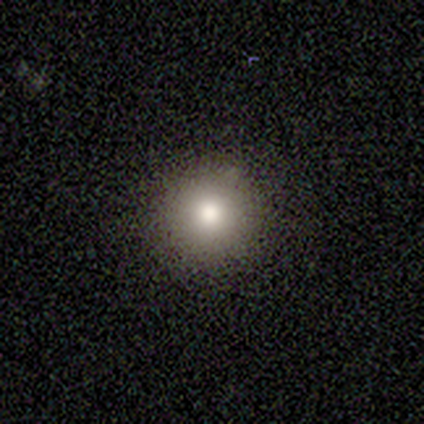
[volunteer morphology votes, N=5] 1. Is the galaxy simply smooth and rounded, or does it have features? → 100% smooth, 0% featured or disk, 0% star or artifact.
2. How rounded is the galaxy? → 100% round, 0% in between, 0% cigar-shaped.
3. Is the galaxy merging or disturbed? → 100% none, 0% minor disturbance, 0% major disturbance, 0% merger.